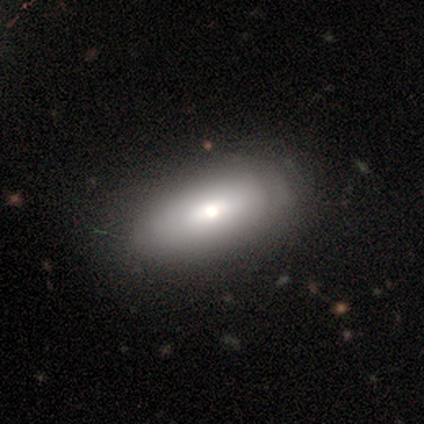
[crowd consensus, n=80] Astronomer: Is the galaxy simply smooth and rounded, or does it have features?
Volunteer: smooth — 75%.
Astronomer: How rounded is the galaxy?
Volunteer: in between — 80%.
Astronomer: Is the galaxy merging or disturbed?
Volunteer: none — 38% (runner-up: minor disturbance, 16%).